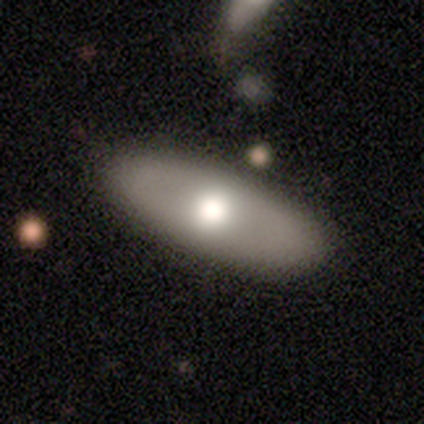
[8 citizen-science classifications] Smooth or featured? smooth (75%)
How rounded? in between (67%)
Merging? none (88%)